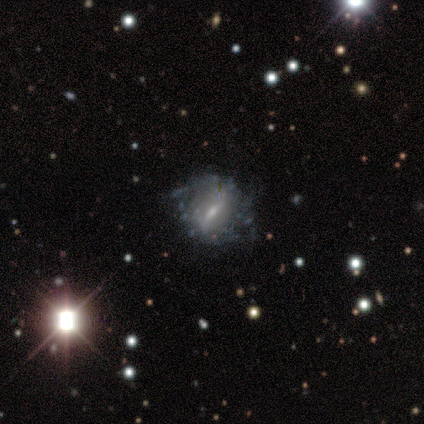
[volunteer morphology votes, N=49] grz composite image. It shows a featured or disk galaxy (84%) with a weak bar (56%), no spiral arms (56%) and a small central bulge (59%). Merging: none (42%, tied with minor disturbance).